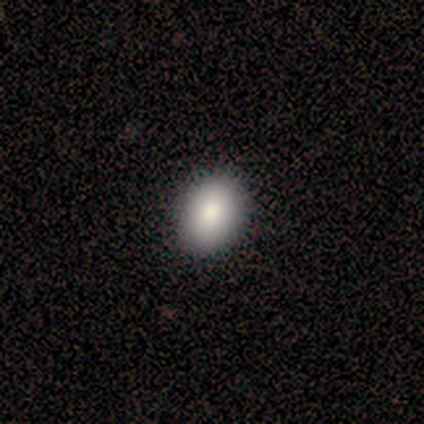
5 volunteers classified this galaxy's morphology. A smooth galaxy with no disk features (80%) that is in between round and cigar-shaped (75%). Merging: none (100%).